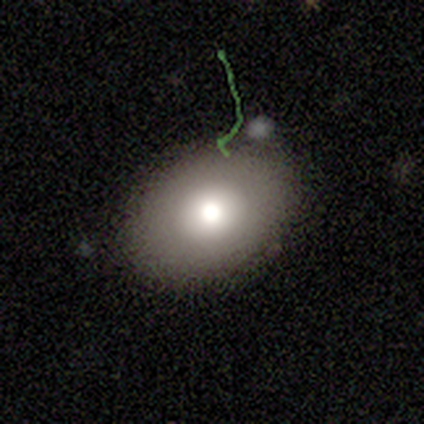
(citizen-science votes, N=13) Q: Smooth or featured?
A: smooth (69%); runner-up: featured or disk (15%)
Q: How rounded?
A: in between (78%); runner-up: round (11%)
Q: Merging?
A: none (82%); runner-up: major disturbance (9%)